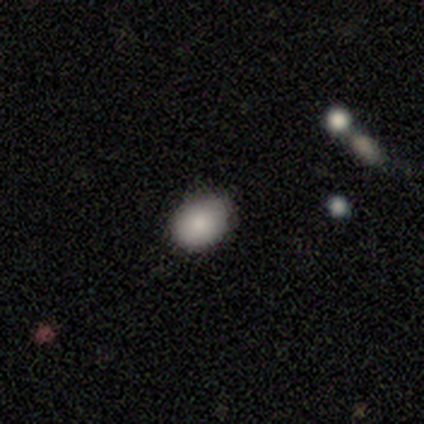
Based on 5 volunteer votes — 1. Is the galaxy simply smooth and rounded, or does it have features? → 100% smooth, 0% featured or disk, 0% star or artifact.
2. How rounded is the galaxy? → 60% round, 40% in between, 0% cigar-shaped.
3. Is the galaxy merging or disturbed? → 60% none, 40% minor disturbance, 0% major disturbance, 0% merger.